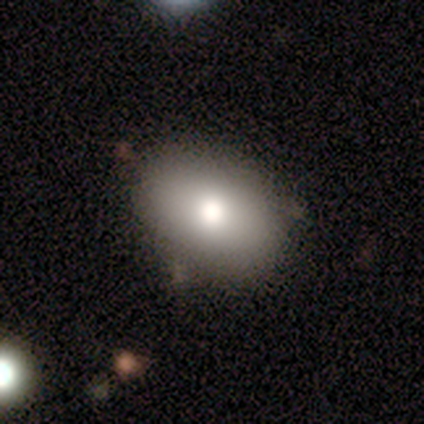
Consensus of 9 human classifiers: smooth-or-featured: smooth: 78% | featured or disk: 22% | star or artifact: 0%
  how-rounded: in between: 86% | round: 14% | cigar-shaped: 0%
  merging: none: 78% | minor disturbance: 22% | major disturbance: 0% | merger: 0%